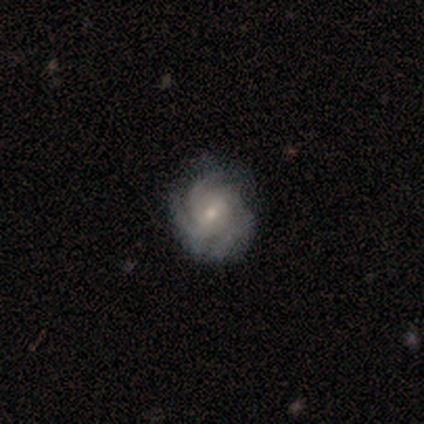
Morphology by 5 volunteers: Smooth or featured? 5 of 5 (100%) said featured or disk. Edge-on disk? 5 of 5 (100%) said no. Bar? 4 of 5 (80%) said weak. Spiral arms? 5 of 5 (100%) said yes. Spiral winding? 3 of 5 (60%) said tight. Spiral arm count? 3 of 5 (60%) said 4. Bulge size? 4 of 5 (80%) said small. Merging? 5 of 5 (100%) said none.